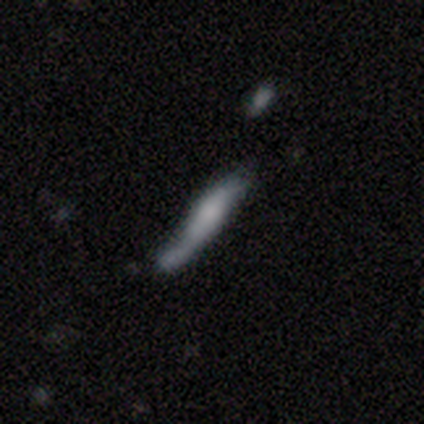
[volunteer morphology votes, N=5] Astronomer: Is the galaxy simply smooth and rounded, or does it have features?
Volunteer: featured or disk — 60% (runner-up: smooth, 40%).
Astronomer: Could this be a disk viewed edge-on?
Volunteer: yes — 67%.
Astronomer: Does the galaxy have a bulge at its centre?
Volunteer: rounded — 100%.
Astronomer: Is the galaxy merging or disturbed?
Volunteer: minor disturbance — 40%, tied with major disturbance at 40%.